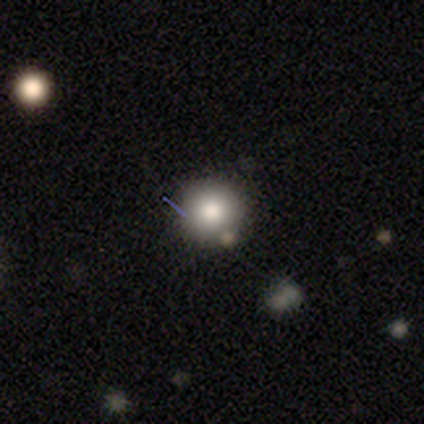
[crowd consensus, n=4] Overall: smooth (75%). How rounded: round (67%; in between 33%). Merging: none (100%).